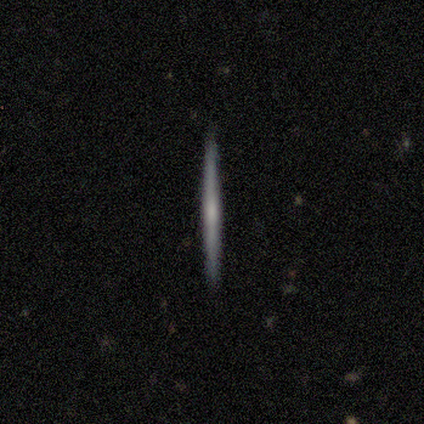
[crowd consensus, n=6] Consensus on every question: smooth or featured — smooth (100%); how rounded — cigar-shaped (100%); merging — none (100%).